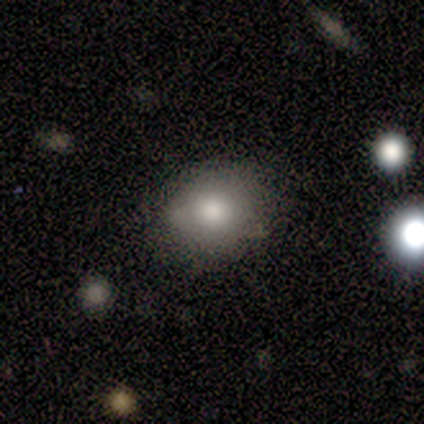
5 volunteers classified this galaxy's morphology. This appears to be a smooth galaxy with no disk features (80%) that is in between round and cigar-shaped (75%). Merging: none (100%).